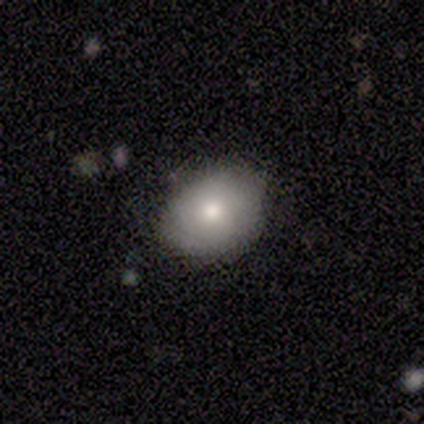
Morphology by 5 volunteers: This appears to be a smooth galaxy with no disk features (100%) that is round (80%). Merging: none (80%).